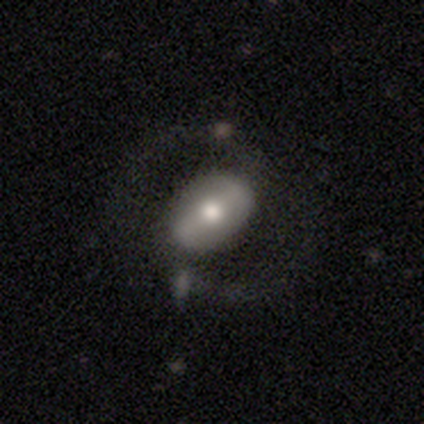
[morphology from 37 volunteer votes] smooth_or_featured: featured or disk (p=0.65) [alt: smooth p=0.27]
disk_edge_on: no (p=0.88) [alt: yes p=0.12]
bar: strong (p=0.52) [alt: weak p=0.33]
has_spiral_arms: yes (p=0.67) [alt: no p=0.33]
spiral_winding: medium (p=0.36) [tied with: loose p=0.36]
spiral_arm_count: 2 (p=1.00)
bulge_size: moderate (p=0.71) [alt: large p=0.19]
merging: none (p=0.56) [alt: merger p=0.12]